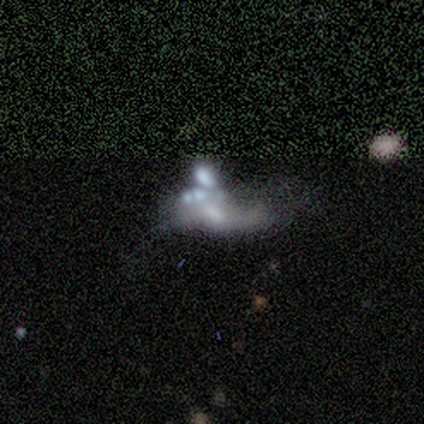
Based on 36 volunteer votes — This is likely a featured or disk galaxy (72%). It is clearly not viewed edge-on (100%). Bar: likely no (62%). Spiral arm pattern: possibly no (58%). Central bulge: marginally none (42%). Merging: possibly merger (53%).